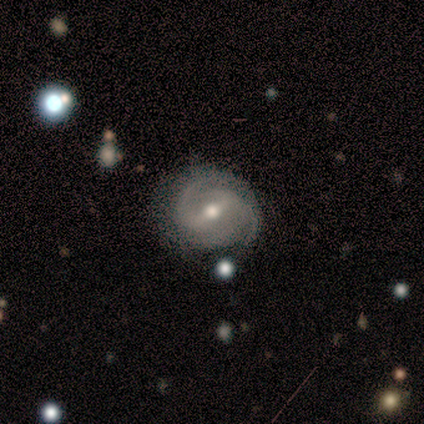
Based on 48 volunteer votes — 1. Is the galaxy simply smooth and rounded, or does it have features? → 90% featured or disk, 8% smooth, 2% star or artifact.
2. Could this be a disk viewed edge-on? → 95% no, 5% yes.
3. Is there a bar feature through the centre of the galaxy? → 61% weak, 34% strong, 5% no.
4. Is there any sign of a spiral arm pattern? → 98% yes, 2% no.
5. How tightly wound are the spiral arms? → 52% medium, 40% tight, 8% loose.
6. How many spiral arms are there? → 70% 2, 22% 3, 5% 4, 2% 1, 0% more than 4, 0% can't tell.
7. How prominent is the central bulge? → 76% moderate, 22% small, 2% large, 0% dominant, 0% none.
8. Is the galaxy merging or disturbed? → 62% none, 28% minor disturbance, 6% merger, 4% major disturbance.